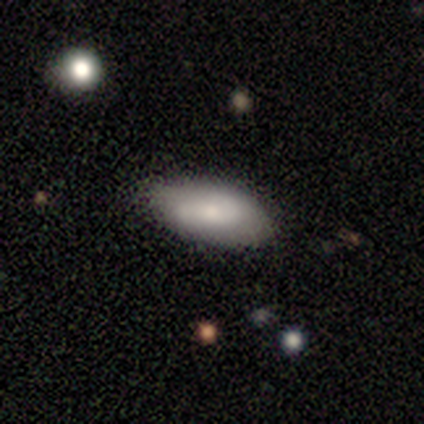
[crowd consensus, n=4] This appears to be a smooth galaxy with no disk features (75%) that is in between round and cigar-shaped (100%). Merging: none (50%).